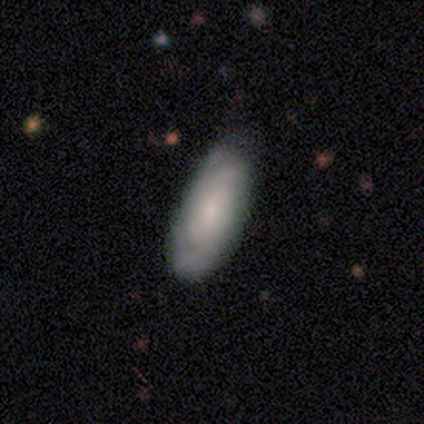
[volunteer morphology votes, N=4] Volunteers were most divided on "smooth or featured" (2-way tie): smooth: 50%, featured or disk: 50%, star or artifact: 0%. More confident: how rounded — in between (100%); merging — none (100%).